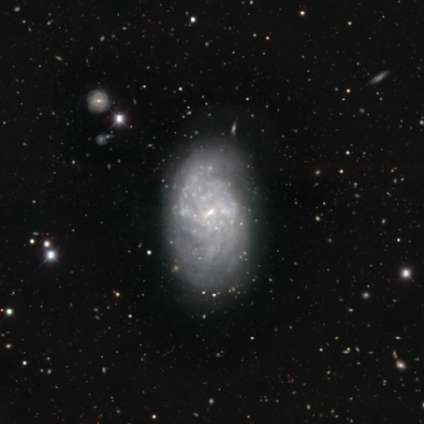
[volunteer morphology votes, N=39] type=featured or disk (87%); edge-on=no (100%); bar=weak (44%); spiral arms=yes (76%); winding=tight (62%); arm count=can't tell (58%); bulge=small (62%); merging=none (43%).